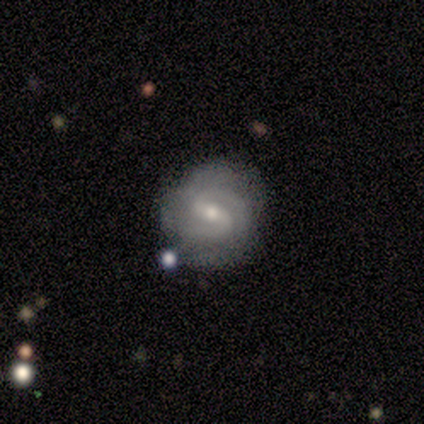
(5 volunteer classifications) Overall: featured or disk (80%). Edge-on disk: no (100%). Bar: weak (100%). Spiral arms: yes (100%). Spiral arm count: 2 (75%). Spiral winding: medium (75%). Bulge size: small (75%). Merging: none (100%).